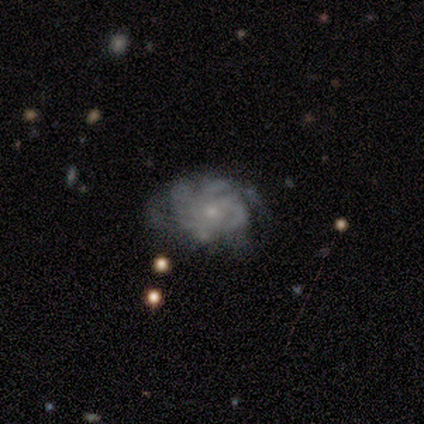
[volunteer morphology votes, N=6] A featured or disk galaxy (100%) with no bar (83%), more than 4 (33%, tied with can't tell) tight (67%) spiral arms (100%) and a small central bulge (83%).

Vote fractions:
- Smooth or featured? featured or disk: 100% / smooth: 0% / star or artifact: 0%
- Edge-on disk? no: 100% / yes: 0%
- Bar? no: 83% / weak: 17% / strong: 0%
- Spiral arms? yes: 100% / no: 0%
- Spiral winding? tight: 67% / loose: 33% / medium: 0%
- Spiral arm count? more than 4: 33% (tied) / can't tell: 33% (tied) / 3: 17% / 4: 17% / 1: 0% / 2: 0%
- Bulge size? small: 83% / moderate: 17% / dominant: 0% / large: 0% / none: 0%
- Merging? none: 67% / minor disturbance: 17% / major disturbance: 17% / merger: 0%